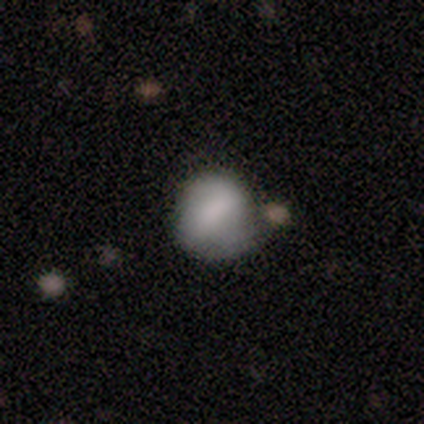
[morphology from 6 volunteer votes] A smooth galaxy with no disk features (67%) that is round (50%, tied with in between).

Vote fractions:
- Smooth or featured? smooth: 67% / featured or disk: 33% / star or artifact: 0%
- How rounded? round: 50% (tied) / in between: 50% (tied) / cigar-shaped: 0%
- Merging? none: 67% / minor disturbance: 33% / major disturbance: 0% / merger: 0%